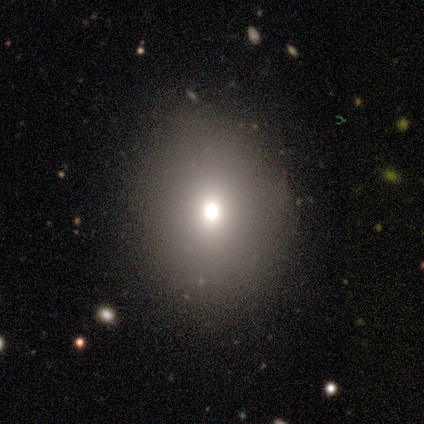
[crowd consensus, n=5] Smooth or featured? smooth (80%)
How rounded? in between (100%)
Merging? none (100%)